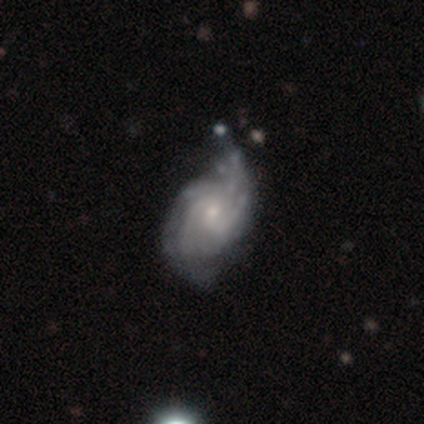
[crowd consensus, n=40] Overall: featured or disk (85%). Edge-on disk: no (97%). Bar: no (73%). Spiral arms: yes (100%). Spiral arm count: can't tell (36%; 4 24%). Spiral winding: medium (48%; tight 33%). Bulge size: small (73%). Merging: minor disturbance (59%; none 26%).